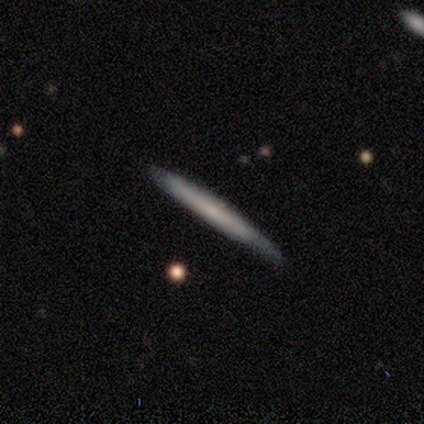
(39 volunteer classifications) Smooth or featured?
  - featured or disk: 67% *
  - smooth: 31%
  - star or artifact: 3%
Edge-on disk?
  - yes: 92% *
  - no: 8%
Edge-on bulge?
  - none: 67% *
  - boxy: 17%
  - rounded: 17%
Merging?
  - none: 84% *
  - minor disturbance: 16%
  - major disturbance: 0%
  - merger: 0%